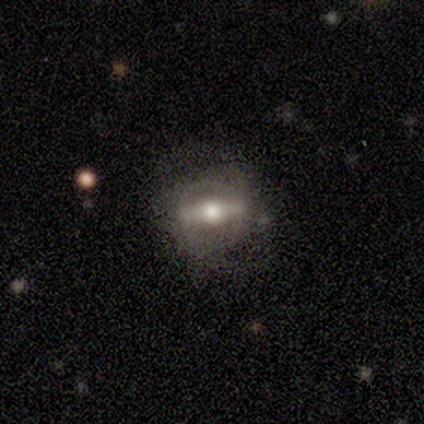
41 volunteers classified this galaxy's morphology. Smooth or featured? 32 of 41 (78%) said featured or disk. Edge-on disk? 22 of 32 (69%) said no. Bar? 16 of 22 (73%) said strong. Spiral arms? 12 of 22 (55%) said no. Bulge size? 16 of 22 (73%) said moderate. Merging? 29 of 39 (74%) said none.